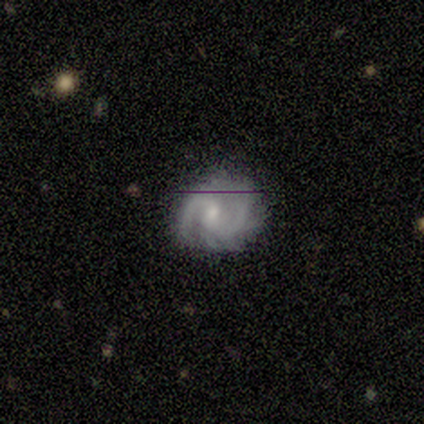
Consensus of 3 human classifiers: featured or disk 67%, smooth 33%, star or artifact 0%. Down the decision tree: edge-on disk — no (100%); bar — weak (50%, tied with no); spiral arms — yes (100%); spiral arm count — 2 (100%); spiral winding — medium (100%); bulge size — moderate (50%, tied with small); merging — none (100%).